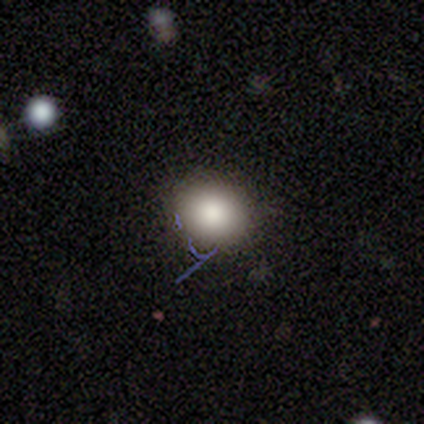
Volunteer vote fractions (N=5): Smooth or featured?
  - smooth: 80% *
  - featured or disk: 20%
  - star or artifact: 0%
How rounded?
  - round: 100% *
  - in between: 0%
  - cigar-shaped: 0%
Merging?
  - none: 100% *
  - minor disturbance: 0%
  - major disturbance: 0%
  - merger: 0%